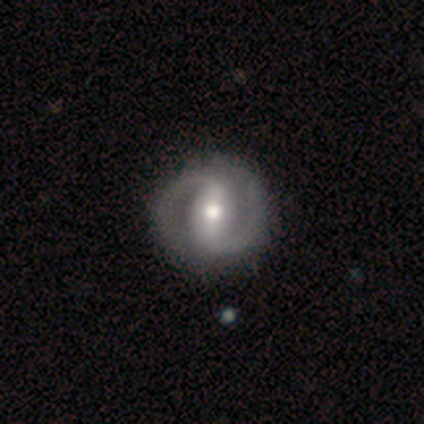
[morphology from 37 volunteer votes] A featured or disk galaxy (86%) with a strong bar (62%), 2 (97%) medium (55%) spiral arms (97%) and a moderate central bulge (69%).

Vote fractions:
- Smooth or featured? featured or disk: 86% / smooth: 11% / star or artifact: 3%
- Edge-on disk? no: 100% / yes: 0%
- Bar? strong: 62% / weak: 28% / no: 9%
- Spiral arms? yes: 97% / no: 3%
- Spiral winding? medium: 55% / tight: 39% / loose: 6%
- Spiral arm count? 2: 97% / 1: 3% / 3: 0% / 4: 0% / more than 4: 0% / can't tell: 0%
- Bulge size? moderate: 69% / small: 16% / large: 12% / none: 3% / dominant: 0%
- Merging? none: 61% / merger: 6% / minor disturbance: 0% / major disturbance: 0%